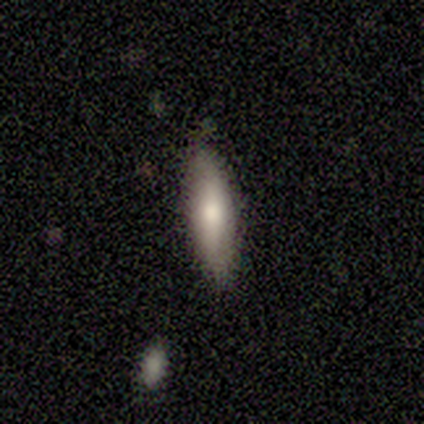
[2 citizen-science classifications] Smooth or featured? 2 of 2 (100%) said smooth. How rounded? 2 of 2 (100%) said in between. Merging? 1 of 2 (50%, tied with major disturbance) said none.